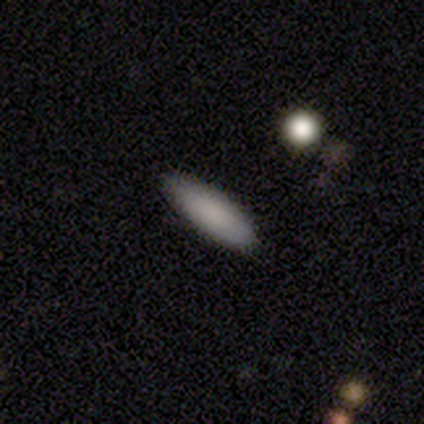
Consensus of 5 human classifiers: Smooth or featured? 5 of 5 (100%) said smooth. How rounded? 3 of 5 (60%) said cigar-shaped. Merging? 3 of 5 (60%) said none.